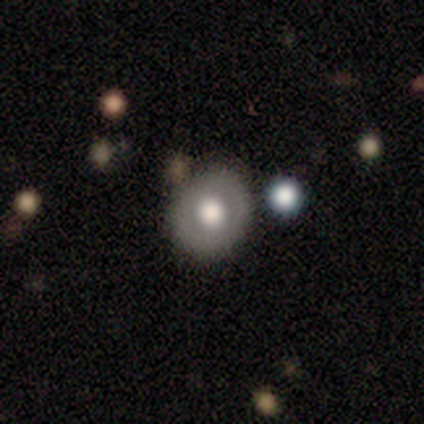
Overall: smooth (58%; featured or disk 25%). How rounded: round (86%). Merging: none (70%).